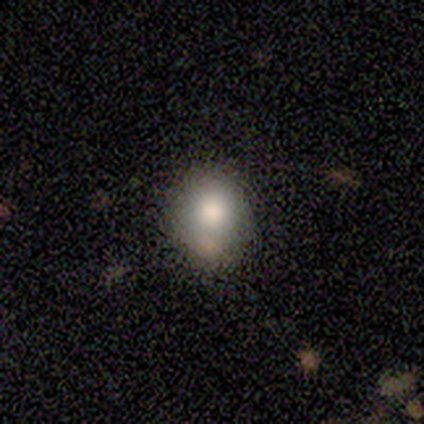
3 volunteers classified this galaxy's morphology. A smooth galaxy with no disk features (67%) that is round (50%, tied with in between). Merging: minor disturbance (100%).